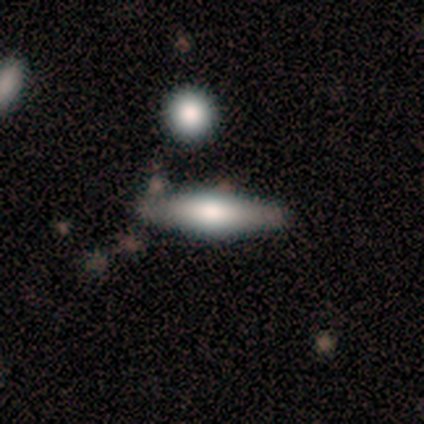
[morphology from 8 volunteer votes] This appears to be a featured or disk galaxy (62%) viewed edge-on (100%) with a rounded central bulge (100%). Merging: none (88%).